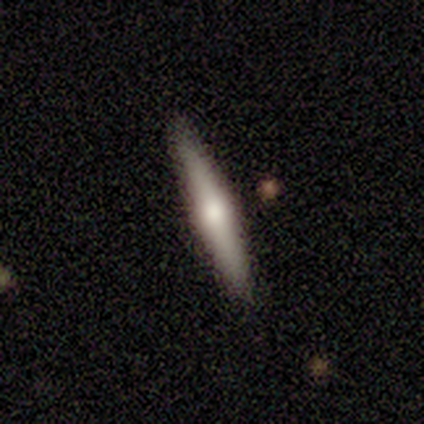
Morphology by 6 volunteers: This is likely a featured or disk galaxy (67%). It is clearly viewed edge-on (100%). Edge-on bulge: likely rounded (75%). Merging: clearly none (100%).